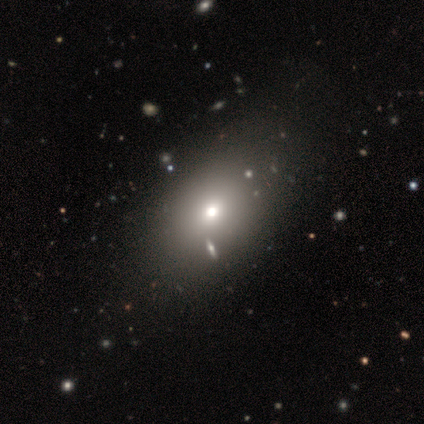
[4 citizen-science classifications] A smooth galaxy with no disk features (100%) that is in between round and cigar-shaped (75%). Merging: none (75%).